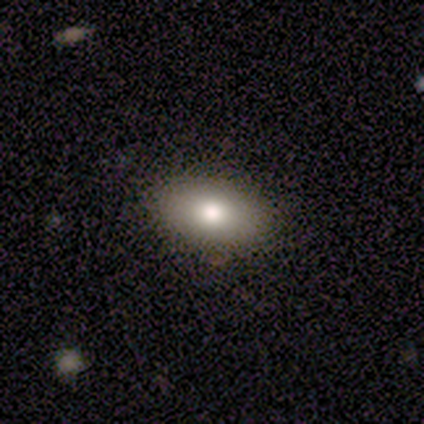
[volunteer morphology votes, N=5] Overall: smooth (100%). How rounded: in between (80%). Merging: none (100%).